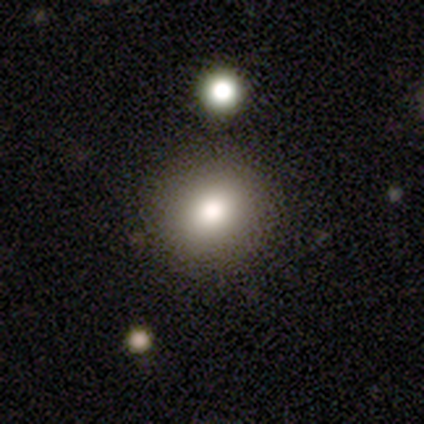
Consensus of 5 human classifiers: Smooth or featured: smooth — 40% (tied with featured or disk — 40%)
How rounded: round — 50% (tied with in between — 50%)
Merging: none — 100%